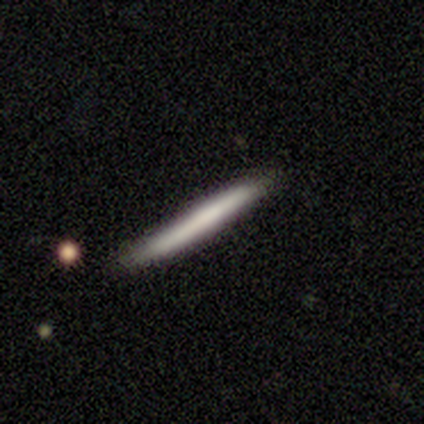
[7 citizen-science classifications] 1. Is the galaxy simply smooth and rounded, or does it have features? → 86% smooth, 14% featured or disk, 0% star or artifact.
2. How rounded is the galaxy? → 100% cigar-shaped, 0% round, 0% in between.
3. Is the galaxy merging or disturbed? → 100% none, 0% minor disturbance, 0% major disturbance, 0% merger.